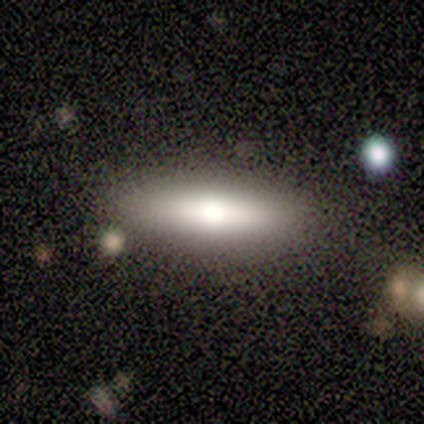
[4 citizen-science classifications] A smooth galaxy with no disk features (75%) that is cigar-shaped (67%). Merging: none (75%).